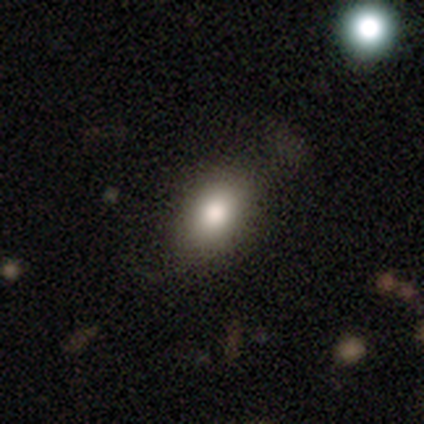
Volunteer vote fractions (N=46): Overall: smooth (78%). How rounded: in between (86%). Merging: none (77%).